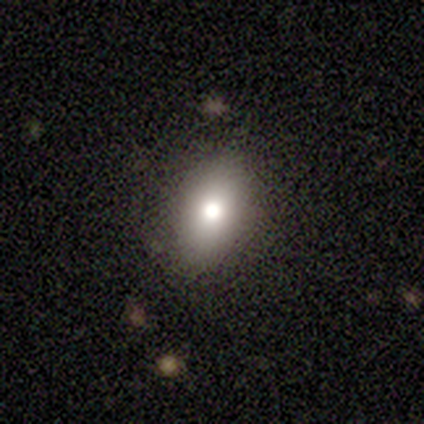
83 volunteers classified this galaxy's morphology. Overall: smooth (81%). How rounded: in between (84%). Merging: none (84%).